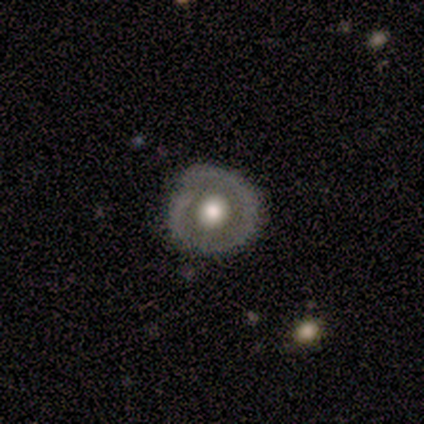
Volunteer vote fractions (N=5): This is likely a smooth galaxy (60%). How rounded: clearly round (100%). Merging: clearly none (80%).